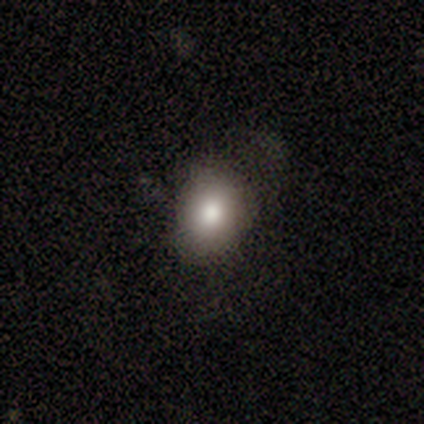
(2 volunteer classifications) Smooth or featured? smooth (50%, tied with star or artifact)
How rounded? in between (100%)
Merging? none (100%)